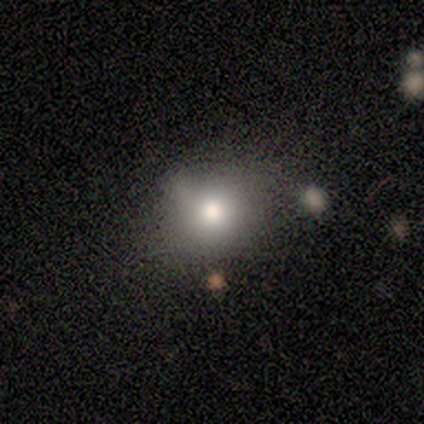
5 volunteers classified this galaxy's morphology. Overall: smooth (100%). How rounded: round (60%; in between 40%). Merging: none (100%).